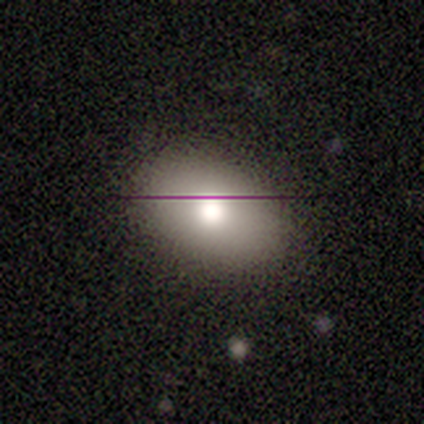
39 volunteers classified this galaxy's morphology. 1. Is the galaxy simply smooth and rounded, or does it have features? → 74% smooth, 18% featured or disk, 8% star or artifact.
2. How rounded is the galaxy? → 79% in between, 21% round, 0% cigar-shaped.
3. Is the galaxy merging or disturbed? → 81% none, 17% minor disturbance, 3% major disturbance, 0% merger.